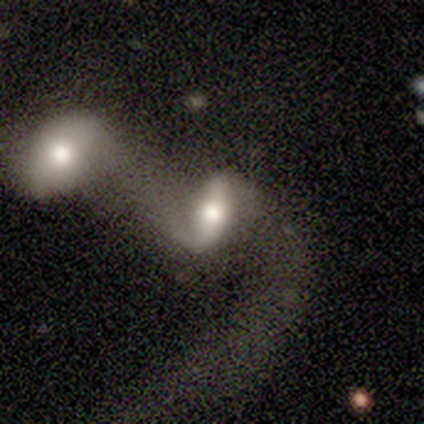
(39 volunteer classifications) Q: Smooth or featured?
A: featured or disk (56%); runner-up: smooth (38%)
Q: Edge-on disk?
A: no (86%); runner-up: yes (14%)
Q: Bar?
A: strong (47%); runner-up: weak (37%)
Q: Spiral arms?
A: yes (74%); runner-up: no (26%)
Q: Spiral winding?
A: loose (71%); runner-up: medium (29%)
Q: Spiral arm count?
A: 2 (86%); runner-up: 1 (7%)
Q: Bulge size?
A: moderate (74%); runner-up: large (11%)
Q: Merging?
A: merger (73%); runner-up: major disturbance (16%)